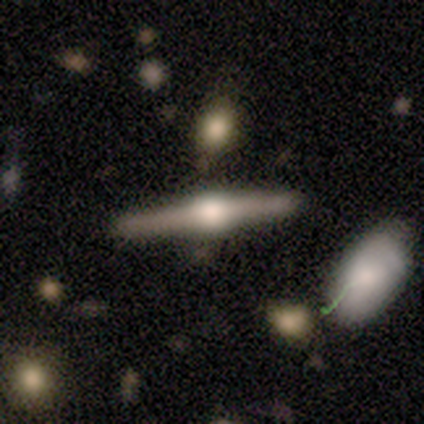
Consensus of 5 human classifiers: This appears to be a featured or disk galaxy (100%) viewed edge-on (100%) with a rounded central bulge (100%). Merging: none (100%).